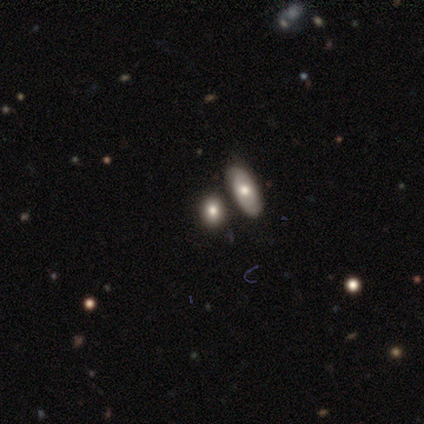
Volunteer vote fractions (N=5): Morphology: type=smooth (60%); roundness=in between (100%); merging=none (75%).